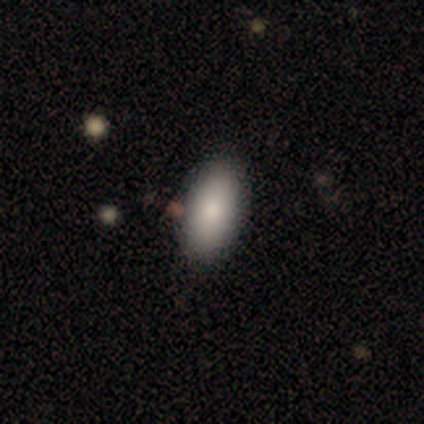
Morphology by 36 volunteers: Q: Smooth or featured?
A: smooth (92%); runner-up: star or artifact (6%)
Q: How rounded?
A: in between (88%); runner-up: round (6%)
Q: Merging?
A: none (74%); runner-up: minor disturbance (15%)